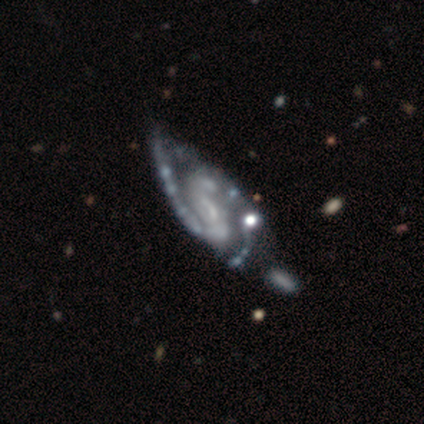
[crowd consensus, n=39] Volunteers were most divided on "bulge size": none: 54%, small: 37%, large: 6%, moderate: 3%, dominant: 0%. Remaining: edge-on disk — no (97%); spiral arms — yes (97%); smooth or featured — featured or disk (92%); spiral arm count — 2 (76%); spiral winding — medium (68%); merging — none (46%); bar — weak (46%).